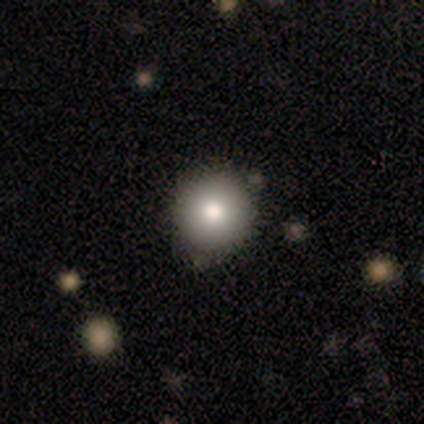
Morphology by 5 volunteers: This is likely a smooth galaxy (60%). How rounded: clearly round (100%). Merging: clearly none (100%).